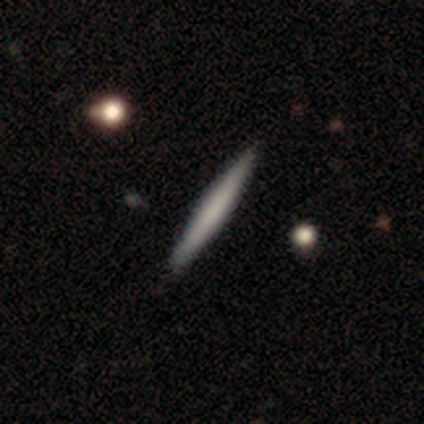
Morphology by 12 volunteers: A smooth galaxy with no disk features (58%) that is cigar-shaped (100%). Merging: none (92%).